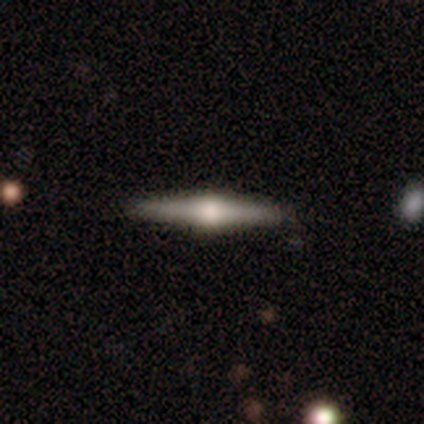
A featured or disk galaxy (80%) viewed edge-on (100%) with a rounded central bulge (100%).

Vote fractions:
- Smooth or featured? featured or disk: 80% / smooth: 20% / star or artifact: 0%
- Edge-on disk? yes: 100% / no: 0%
- Edge-on bulge? rounded: 100% / boxy: 0% / none: 0%
- Merging? none: 80% / minor disturbance: 20% / major disturbance: 0% / merger: 0%